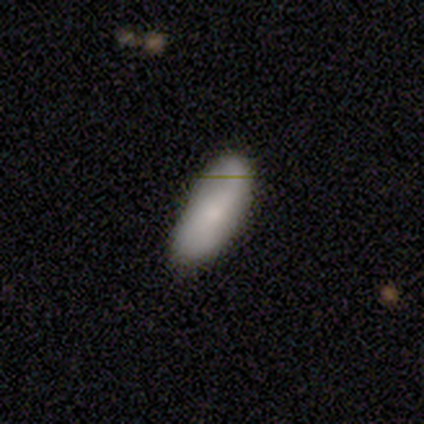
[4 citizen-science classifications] A smooth galaxy with no disk features (50%, tied with featured or disk) that is in between round and cigar-shaped (100%).

Vote fractions:
- Smooth or featured? smooth: 50% (tied) / featured or disk: 50% (tied) / star or artifact: 0%
- How rounded? in between: 100% / round: 0% / cigar-shaped: 0%
- Merging? none: 50% / minor disturbance: 25% / major disturbance: 25% / merger: 0%